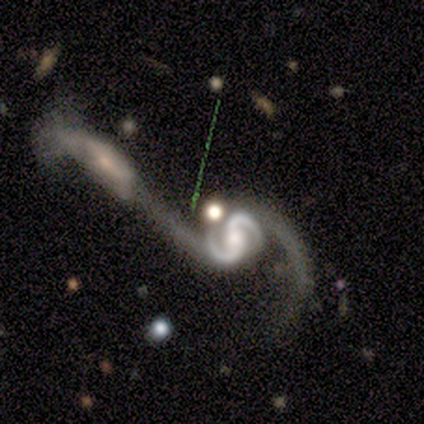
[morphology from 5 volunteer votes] Q: Smooth or featured?
A: featured or disk (100%)
Q: Edge-on disk?
A: no (100%)
Q: Bar?
A: no (60%); runner-up: strong (20%)
Q: Spiral arms?
A: yes (100%)
Q: Spiral winding?
A: medium (40%); tied with: loose (40%)
Q: Spiral arm count?
A: 2 (100%)
Q: Bulge size?
A: moderate (80%); runner-up: small (20%)
Q: Merging?
A: merger (60%); runner-up: none (20%)